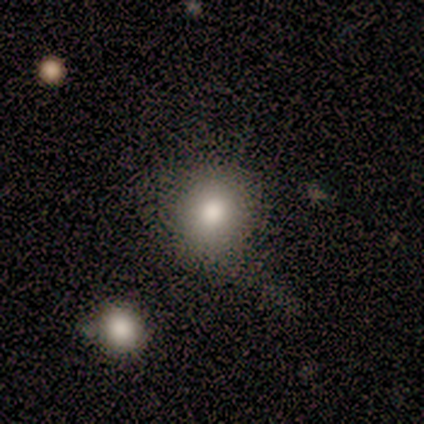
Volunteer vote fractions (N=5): smooth_or_featured: smooth (p=1.00)
how_rounded: round (p=1.00)
merging: none (p=0.80) [alt: merger p=0.20]